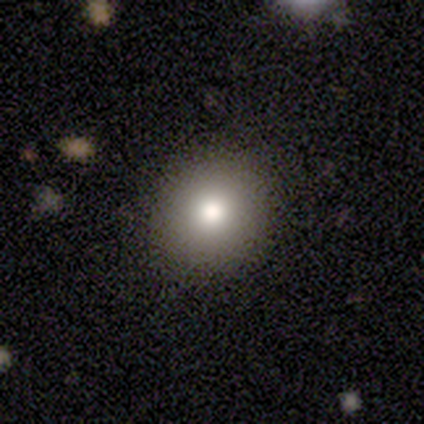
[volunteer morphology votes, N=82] Volunteers were most divided on "smooth or featured": smooth: 77%, featured or disk: 12%, star or artifact: 11%. More confident: merging — none (95%); how rounded — round (94%).